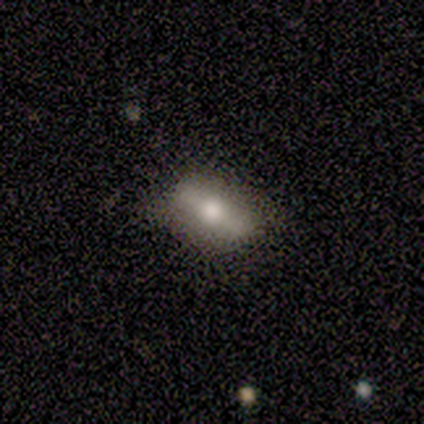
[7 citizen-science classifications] smooth_or_featured: smooth (p=0.43) [alt: featured or disk p=0.29]
how_rounded: in between (p=1.00)
merging: none (p=0.80) [alt: minor disturbance p=0.20]